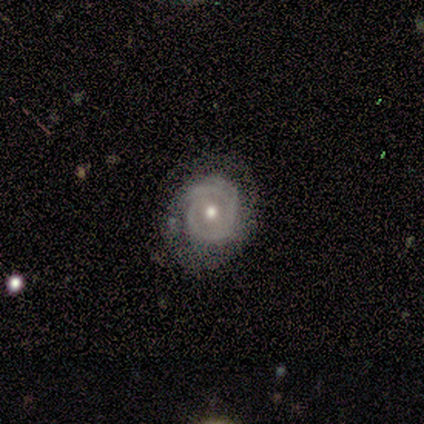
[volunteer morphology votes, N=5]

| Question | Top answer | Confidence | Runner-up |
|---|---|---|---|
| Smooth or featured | featured or disk | 80% | star or artifact (20%) |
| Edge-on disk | no | 75% | yes (25%) |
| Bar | no | 100% | — |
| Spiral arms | no | 67% | yes (33%) |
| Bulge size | small | 67% | dominant (33%) |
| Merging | none | 50% | tied: minor disturbance (50%) |